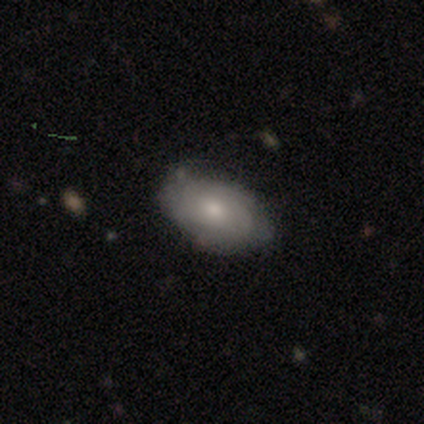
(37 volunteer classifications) smooth-or-featured: featured or disk: 49% | smooth: 46% | star or artifact: 5%
  disk-edge-on: no: 94% | yes: 6%
    bar: no: 94% | weak: 6% | strong: 0%
    has-spiral-arms: yes: 82% | no: 18%
      spiral-winding: tight: 71% | medium: 14% | loose: 14%
      spiral-arm-count: can't tell: 79% | 2: 14% | 3: 7% | 1: 0% | 4: 0% | more than 4: 0%
    bulge-size: moderate: 53% | small: 35% | large: 12% | dominant: 0% | none: 0%
  merging: none: 54% | minor disturbance: 43% | major disturbance: 3% | merger: 0%